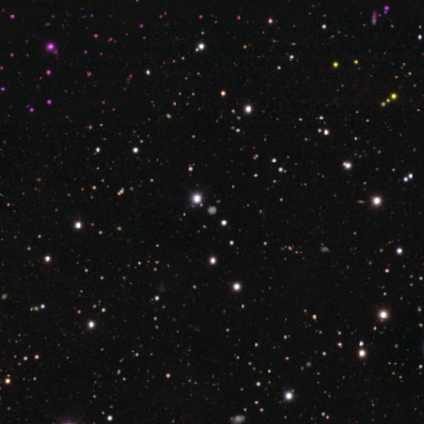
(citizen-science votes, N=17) Smooth or featured? star or artifact (71%)